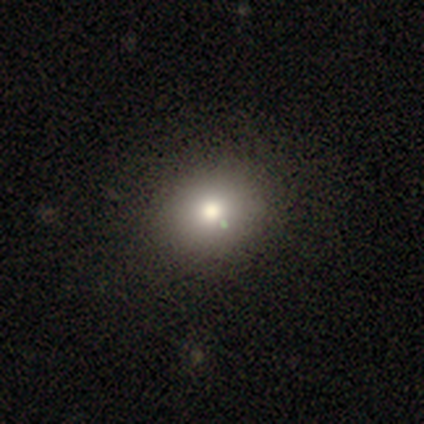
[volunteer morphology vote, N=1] A smooth galaxy with no disk features (100%) that is round (100%). Merging: none (100%).